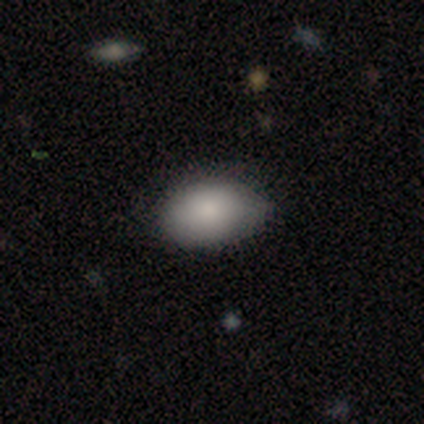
This appears to be a smooth galaxy with no disk features (100%) that is in between round and cigar-shaped (100%). Merging: none (50%, tied with minor disturbance).